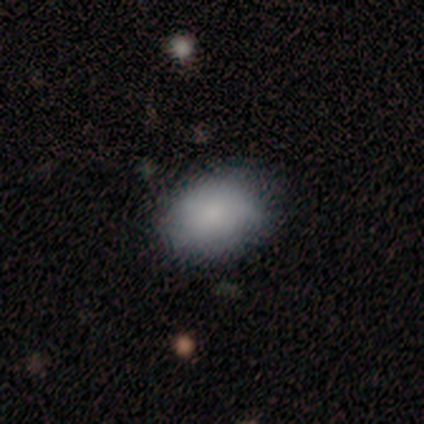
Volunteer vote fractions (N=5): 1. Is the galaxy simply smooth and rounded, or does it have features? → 100% smooth, 0% featured or disk, 0% star or artifact.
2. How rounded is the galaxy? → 80% in between, 20% round, 0% cigar-shaped.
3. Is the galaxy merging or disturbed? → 80% none, 20% minor disturbance, 0% major disturbance, 0% merger.